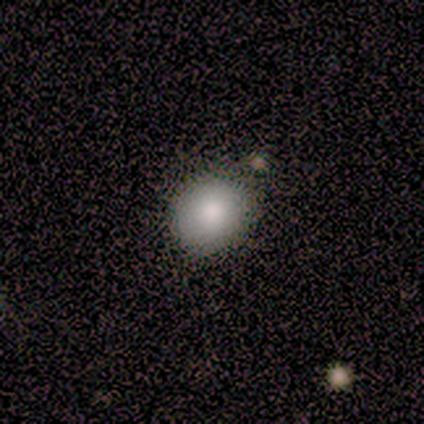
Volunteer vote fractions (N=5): Smooth or featured? 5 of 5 (100%) said smooth. How rounded? 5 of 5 (100%) said round. Merging? 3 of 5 (60%) said none.